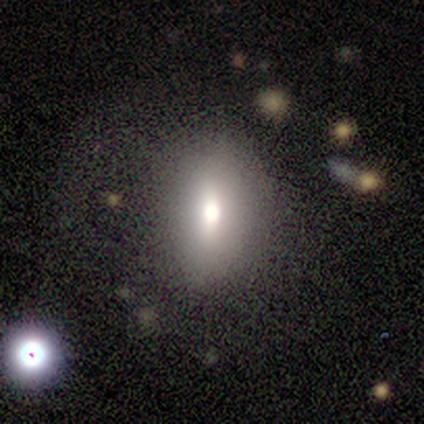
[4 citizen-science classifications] Q: Smooth or featured?
A: smooth (100%)
Q: How rounded?
A: in between (50%); runner-up: round (25%)
Q: Merging?
A: none (50%); runner-up: minor disturbance (25%)